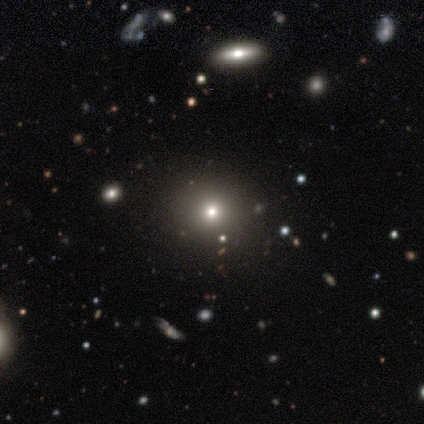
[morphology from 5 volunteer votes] This appears to be a smooth galaxy with no disk features (60%) that is round (100%). Merging: none (67%).